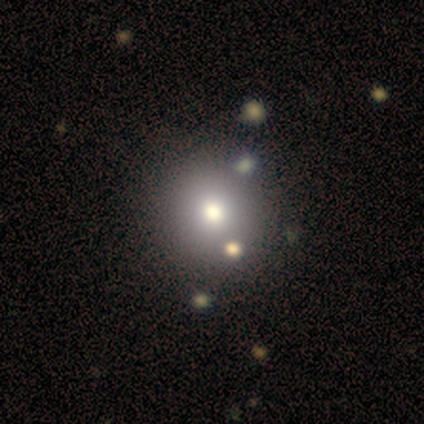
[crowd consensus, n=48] A smooth galaxy with no disk features (73%) that is round (91%). Merging: none (87%).